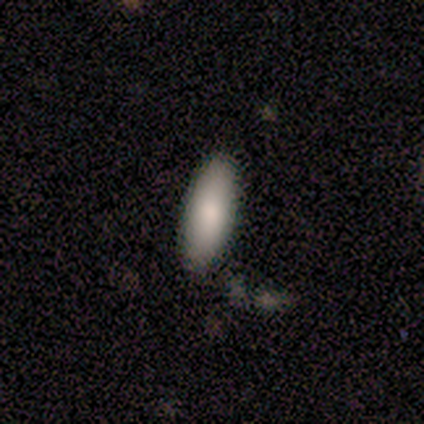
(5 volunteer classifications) Smooth or featured?
  - smooth: 100% *
  - featured or disk: 0%
  - star or artifact: 0%
How rounded?
  - in between: 80% *
  - cigar-shaped: 20%
  - round: 0%
Merging?
  - none: 100% *
  - minor disturbance: 0%
  - major disturbance: 0%
  - merger: 0%